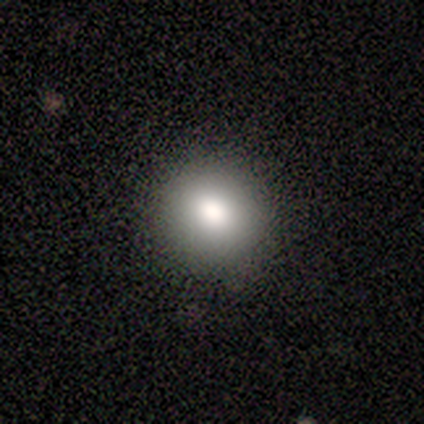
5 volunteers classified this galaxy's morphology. Volunteers were most divided on "smooth or featured": smooth: 80%, featured or disk: 20%, star or artifact: 0%. More confident: how rounded — round (100%); merging — none (100%).